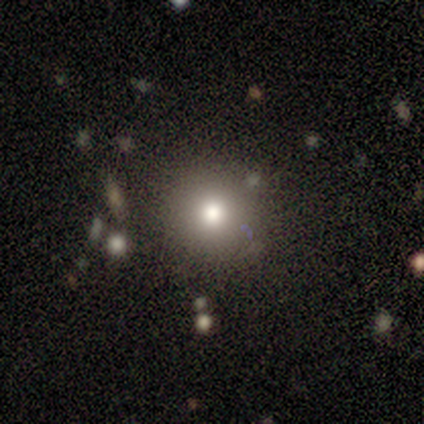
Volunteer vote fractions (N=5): This is clearly a smooth galaxy (100%). How rounded: clearly round (100%). Merging: clearly none (100%).